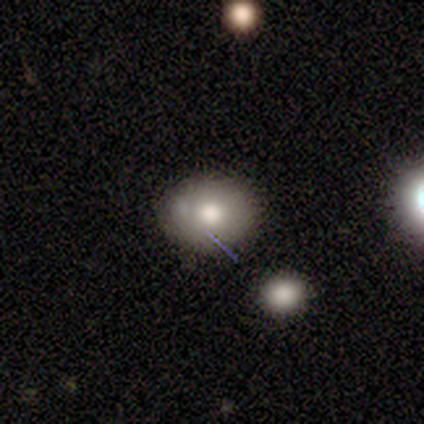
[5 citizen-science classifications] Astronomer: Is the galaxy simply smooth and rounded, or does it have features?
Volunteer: smooth — 80%.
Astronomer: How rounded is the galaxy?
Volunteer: round — 75%.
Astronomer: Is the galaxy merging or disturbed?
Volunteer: none — 80%.